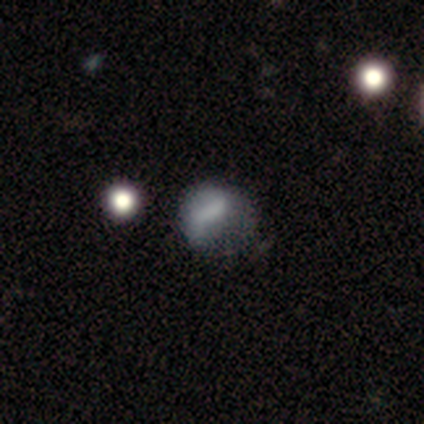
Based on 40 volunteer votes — Smooth or featured?
  - smooth: 42% * (tied)
  - featured or disk: 42% * (tied)
  - star or artifact: 15%
How rounded?
  - round: 59% *
  - in between: 41%
  - cigar-shaped: 0%
Merging?
  - major disturbance: 47% *
  - minor disturbance: 29%
  - none: 24%
  - merger: 0%